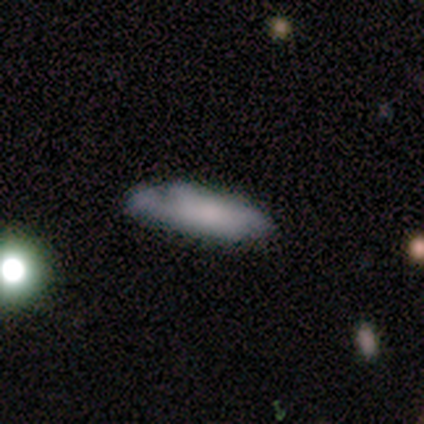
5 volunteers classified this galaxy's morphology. This is likely a featured or disk galaxy (60%). It is likely not viewed edge-on (67%). Bar: clearly no (100%). Spiral arm pattern: possibly yes (50%, tied with no). Spiral arm count: clearly 2 (100%). Spiral winding: clearly tight (100%). Central bulge: possibly moderate (50%, tied with small). Merging: marginally minor disturbance (40%, tied with major disturbance).